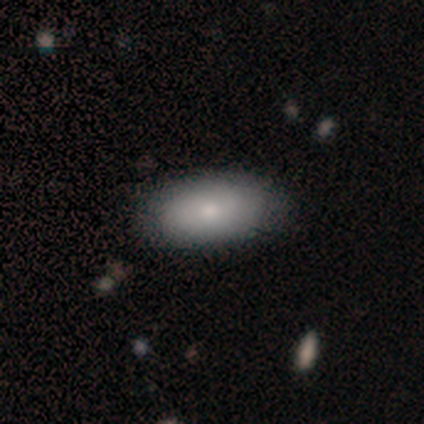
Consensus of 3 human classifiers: Q: Smooth or featured?
A: smooth (67%); runner-up: star or artifact (33%)
Q: How rounded?
A: in between (100%)
Q: Merging?
A: none (100%)